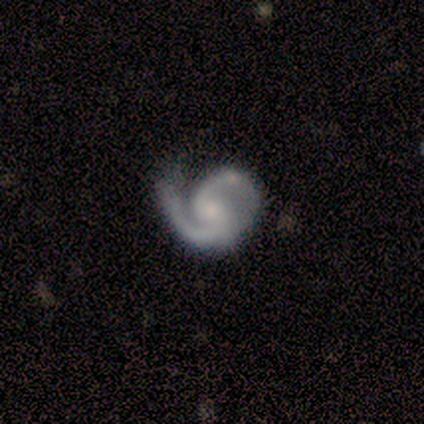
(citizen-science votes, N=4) This is clearly a featured or disk galaxy (100%). It is clearly not viewed edge-on (100%). Bar: likely weak (75%). Spiral arm pattern: clearly yes (100%). Spiral arm count: clearly 2 (100%). Spiral winding: possibly tight (50%, tied with medium). Central bulge: possibly small (50%, tied with none). Merging: possibly none (50%).